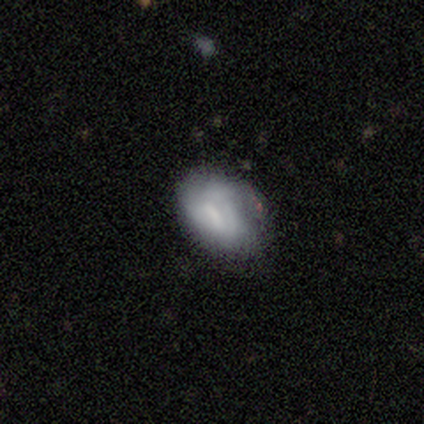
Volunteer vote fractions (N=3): This appears to be a smooth galaxy with no disk features (67%) that is in between round and cigar-shaped (100%). Merging: minor disturbance (100%).